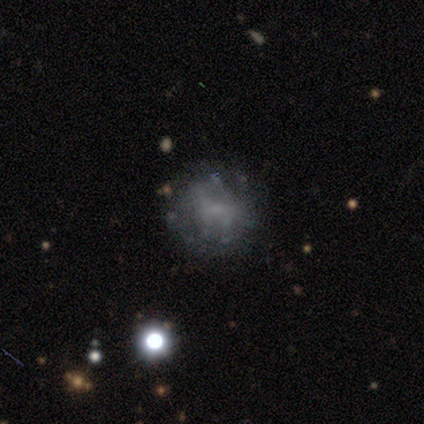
A featured or disk galaxy (80%) with no bar (100%), no spiral arms (75%) and a small central bulge (50%, tied with none). Merging: none (75%).